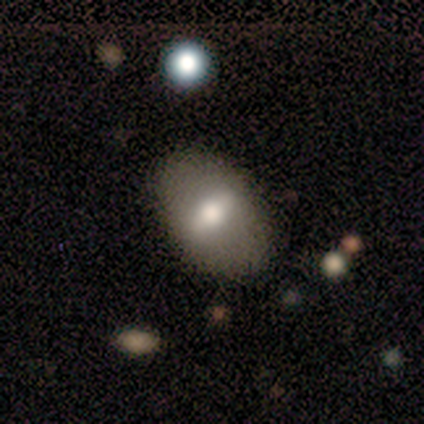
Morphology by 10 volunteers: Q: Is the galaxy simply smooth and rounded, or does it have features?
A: smooth — 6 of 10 (60%).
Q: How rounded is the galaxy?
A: in between — 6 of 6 (100%).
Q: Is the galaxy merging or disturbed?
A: none — 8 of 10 (80%).